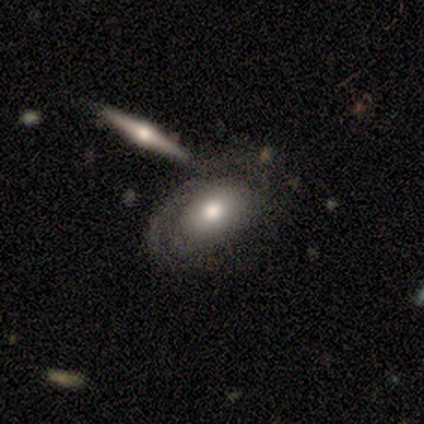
Morphology: type=featured or disk (80%); edge-on=no (75%); bar=no (100%); spiral arms=yes (67%); winding=tight (50%, tied with medium); arm count=2 (100%); bulge=moderate (100%); merging=none (80%).